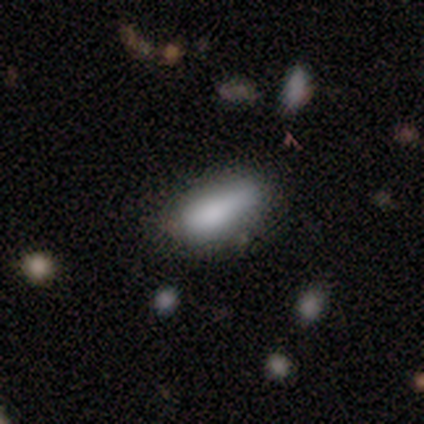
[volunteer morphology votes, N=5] Smooth or featured?
  - smooth: 60% *
  - featured or disk: 20%
  - star or artifact: 20%
How rounded?
  - cigar-shaped: 67% *
  - in between: 33%
  - round: 0%
Merging?
  - none: 50% * (tied)
  - minor disturbance: 50% * (tied)
  - major disturbance: 0%
  - merger: 0%